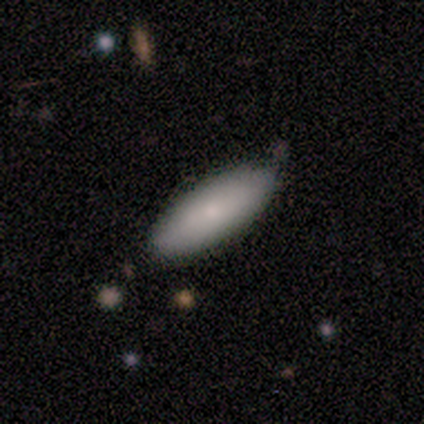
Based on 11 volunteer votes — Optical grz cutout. It shows a smooth galaxy with no disk features (82%) that is in between round and cigar-shaped (100%). Merging: none (70%).